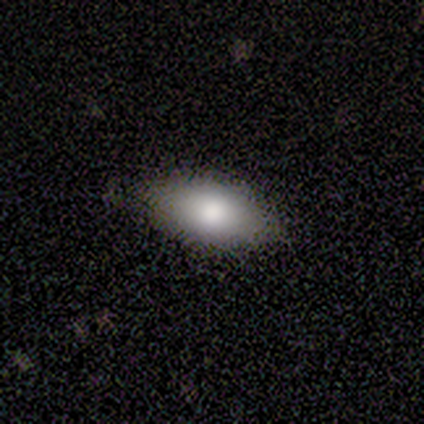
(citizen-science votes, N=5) Smooth or featured? smooth (80%)
How rounded? in between (100%)
Merging? none (100%)